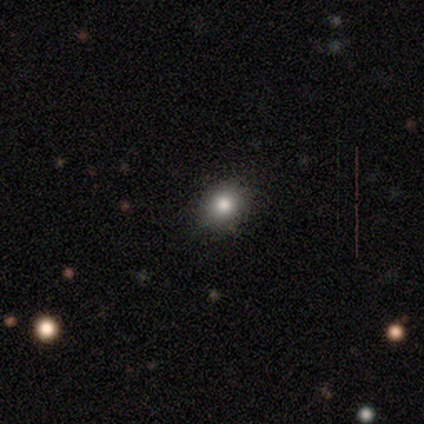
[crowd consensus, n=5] A smooth galaxy with no disk features (80%) that is round (75%).

Vote fractions:
- Smooth or featured? smooth: 80% / star or artifact: 20% / featured or disk: 0%
- How rounded? round: 75% / in between: 25% / cigar-shaped: 0%
- Merging? none: 100% / minor disturbance: 0% / major disturbance: 0% / merger: 0%